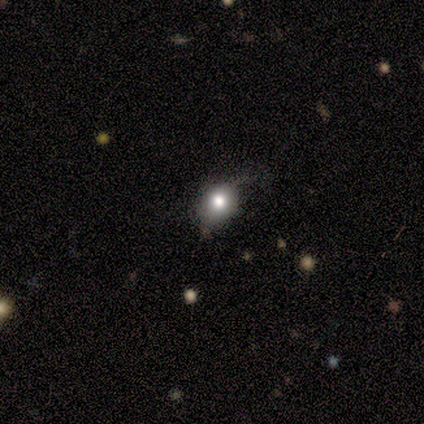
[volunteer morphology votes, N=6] smooth_or_featured: star or artifact (p=0.50) [alt: smooth p=0.33]